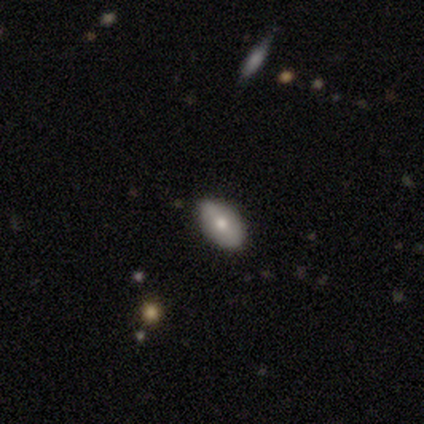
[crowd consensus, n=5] Morphology: type=smooth (80%); roundness=in between (75%); merging=none (75%).